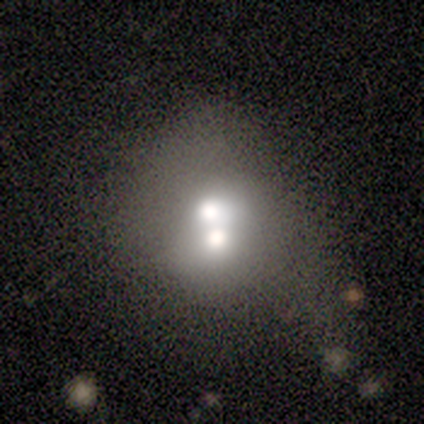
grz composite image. It shows a smooth galaxy with no disk features (50%, tied with featured or disk) that is round (100%). Merging: merger (75%).